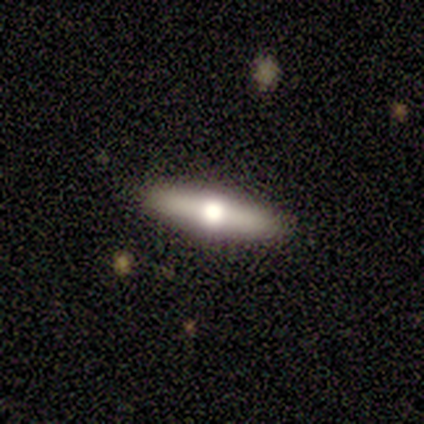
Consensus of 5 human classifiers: A featured or disk galaxy (60%) viewed edge-on (67%) with a rounded central bulge (100%). Merging: none (100%).